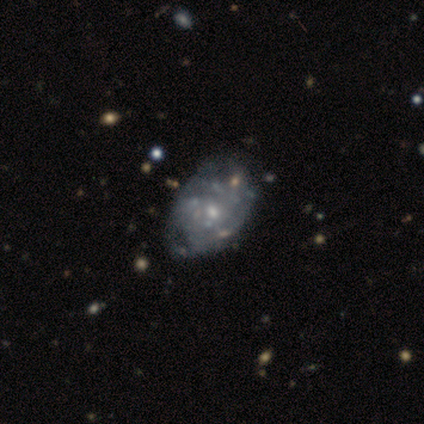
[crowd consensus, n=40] Smooth or featured?
  - featured or disk: 85% *
  - smooth: 12%
  - star or artifact: 2%
Edge-on disk?
  - no: 100% *
  - yes: 0%
Bar?
  - no: 88% *
  - weak: 9%
  - strong: 3%
Spiral arms?
  - yes: 56% *
  - no: 44%
Spiral winding?
  - tight: 47% *
  - medium: 37%
  - loose: 16%
Spiral arm count?
  - can't tell: 79% *
  - 3: 11%
  - 2: 5%
  - more than 4: 5%
  - 1: 0%
  - 4: 0%
Bulge size?
  - small: 62% *
  - moderate: 32%
  - large: 6%
  - dominant: 0%
  - none: 0%
Merging?
  - none: 51% *
  - minor disturbance: 13%
  - major disturbance: 10%
  - merger: 5%